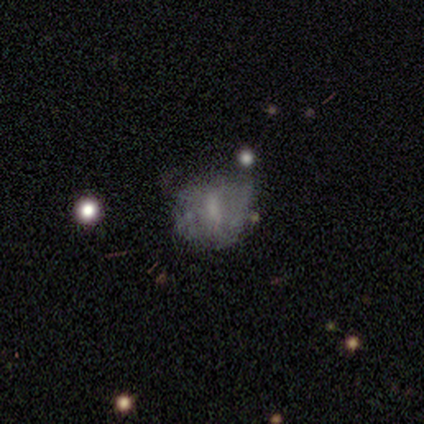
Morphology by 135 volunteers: type=featured or disk (51%); edge-on=no (99%); bar=no (44%); spiral arms=no (79%); bulge=small (34%); merging=none (46%).